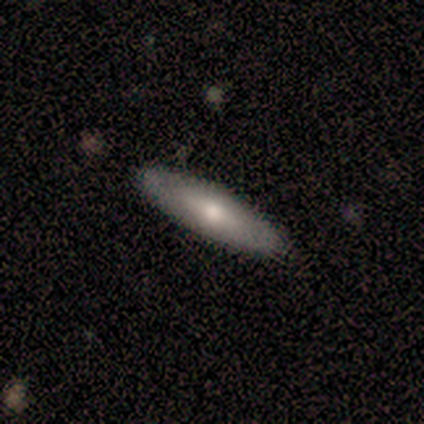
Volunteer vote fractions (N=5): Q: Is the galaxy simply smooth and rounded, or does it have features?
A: featured or disk — 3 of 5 (60%).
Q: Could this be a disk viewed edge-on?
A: yes — 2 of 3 (67%).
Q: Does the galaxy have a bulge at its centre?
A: none — 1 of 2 (50%, tied with rounded).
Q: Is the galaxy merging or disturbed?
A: none — 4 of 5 (80%).